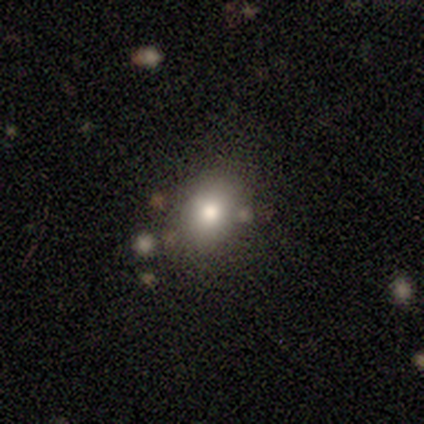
Smooth or featured? smooth (80%)
How rounded? round (50%, tied with in between)
Merging? none (75%)